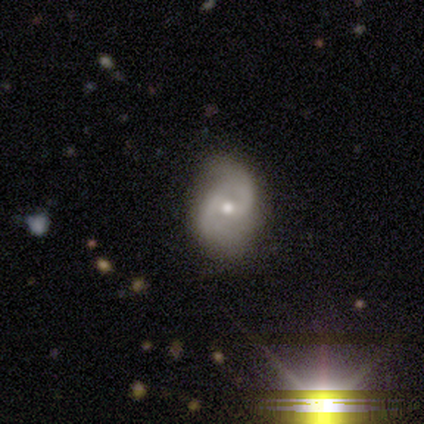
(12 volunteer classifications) Smooth or featured: featured or disk — 100%
Edge-on disk: no — 100%
Bar: weak — 58% (no — 33%)
Spiral arms: yes — 92% (no — 8%)
Spiral winding: tight — 36% (tied with loose — 36%)
Spiral arm count: 2 — 100%
Bulge size: moderate — 75% (small — 25%)
Merging: none — 92% (minor disturbance — 8%)